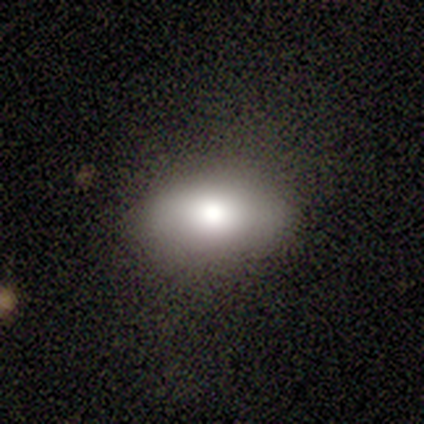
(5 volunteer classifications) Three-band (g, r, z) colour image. It shows a smooth galaxy with no disk features (100%) that is in between round and cigar-shaped (100%). Merging: none (80%).